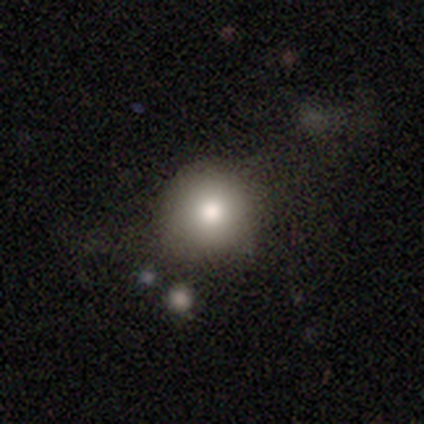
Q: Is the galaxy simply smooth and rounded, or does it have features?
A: smooth — 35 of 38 (92%).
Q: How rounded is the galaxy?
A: round — 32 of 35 (91%).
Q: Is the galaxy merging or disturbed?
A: none — 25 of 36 (69%).